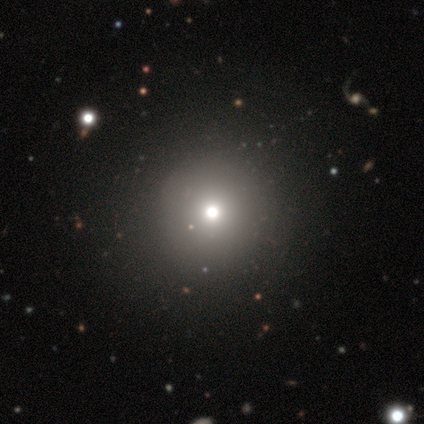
smooth-or-featured: smooth: 80% | star or artifact: 20% | featured or disk: 0%
  how-rounded: round: 100% | in between: 0% | cigar-shaped: 0%
  merging: none: 100% | minor disturbance: 0% | major disturbance: 0% | merger: 0%